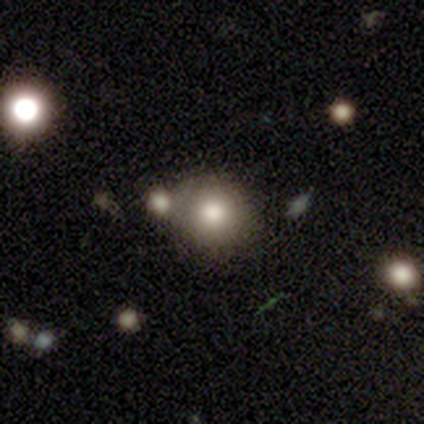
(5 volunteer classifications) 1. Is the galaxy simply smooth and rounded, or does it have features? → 100% smooth, 0% featured or disk, 0% star or artifact.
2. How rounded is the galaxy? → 60% round, 40% in between, 0% cigar-shaped.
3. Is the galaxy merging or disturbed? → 80% none, 20% major disturbance, 0% minor disturbance, 0% merger.